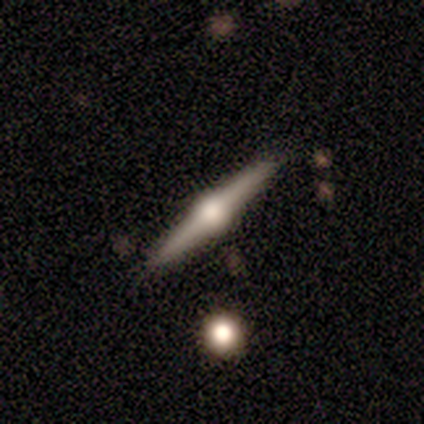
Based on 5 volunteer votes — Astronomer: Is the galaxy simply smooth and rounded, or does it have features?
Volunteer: featured or disk — 100%.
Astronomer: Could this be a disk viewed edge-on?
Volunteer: yes — 100%.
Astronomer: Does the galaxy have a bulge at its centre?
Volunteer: rounded — 100%.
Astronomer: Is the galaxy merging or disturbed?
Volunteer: none — 80%.